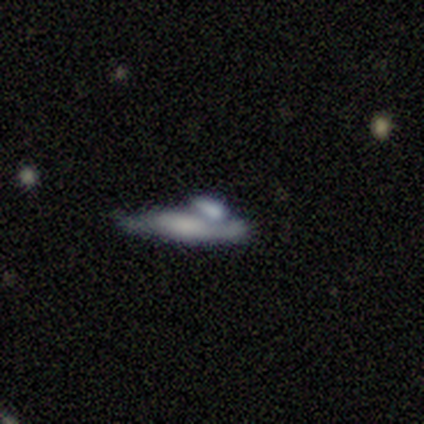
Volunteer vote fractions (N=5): A smooth galaxy with no disk features (40%, tied with featured or disk) that is cigar-shaped (100%). Merging: merger (50%).